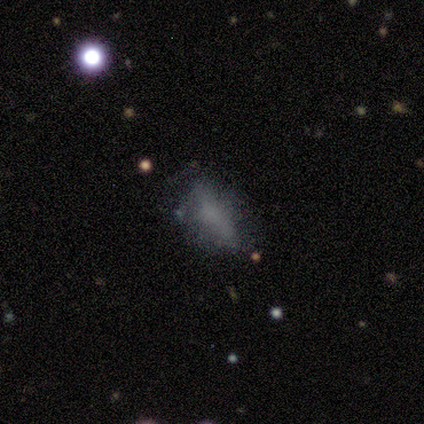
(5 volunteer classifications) A smooth galaxy with no disk features (80%) that is in between round and cigar-shaped (75%). Merging: none (60%).